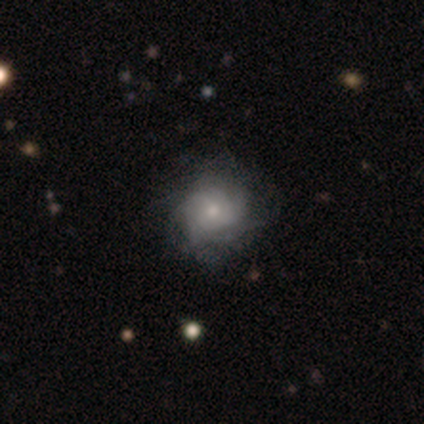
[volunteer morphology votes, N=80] Overall: featured or disk (69%). Edge-on disk: no (100%). Bar: no (91%). Spiral arms: yes (93%). Spiral arm count: can't tell (69%). Spiral winding: tight (63%; medium 29%). Bulge size: moderate (49%; small 47%). Merging: none (36%; minor disturbance 10%).